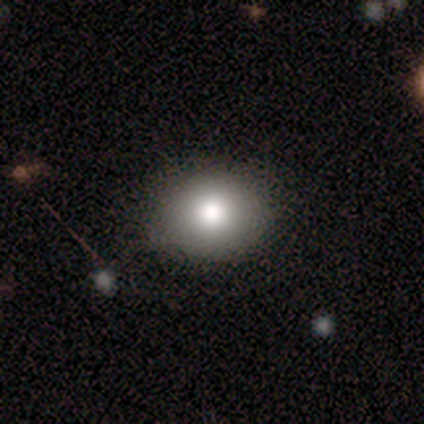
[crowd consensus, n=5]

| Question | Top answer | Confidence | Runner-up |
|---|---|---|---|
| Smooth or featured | smooth | 80% | star or artifact (20%) |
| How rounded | in between | 75% | round (25%) |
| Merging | none | 100% | — |